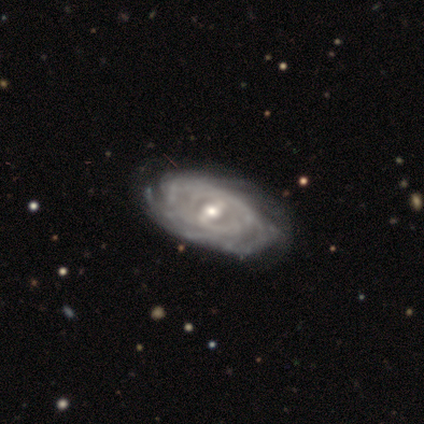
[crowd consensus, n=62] Smooth or featured?
  - featured or disk: 90% *
  - smooth: 6%
  - star or artifact: 3%
Edge-on disk?
  - no: 91% *
  - yes: 9%
Bar?
  - weak: 47% *
  - strong: 45%
  - no: 8%
Spiral arms?
  - yes: 90% *
  - no: 10%
Spiral winding?
  - tight: 78% *
  - medium: 20%
  - loose: 2%
Spiral arm count?
  - can't tell: 52% *
  - more than 4: 22%
  - 4: 9%
  - 2: 7%
  - 3: 7%
  - 1: 4%
Bulge size?
  - moderate: 65% *
  - small: 31%
  - dominant: 2%
  - large: 2%
  - none: 0%
Merging?
  - none: 47% *
  - minor disturbance: 20%
  - major disturbance: 7%
  - merger: 2%